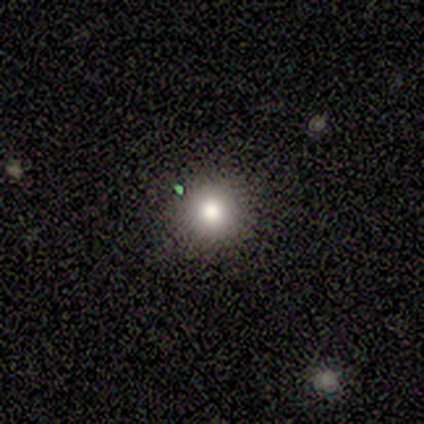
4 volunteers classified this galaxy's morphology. Overall: smooth (75%). How rounded: round (100%). Merging: none (67%; minor disturbance 33%).